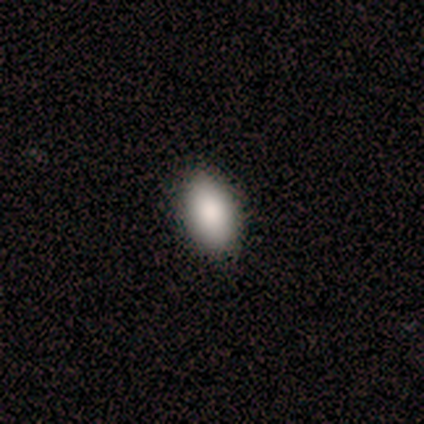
Q: Smooth or featured?
A: smooth (80%); runner-up: featured or disk (20%)
Q: How rounded?
A: in between (100%)
Q: Merging?
A: none (80%); runner-up: major disturbance (20%)